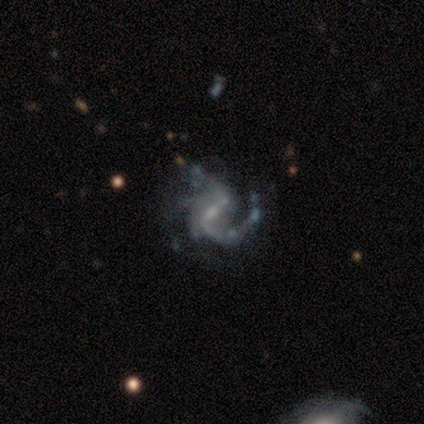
Smooth or featured?
  - featured or disk: 89% *
  - star or artifact: 11%
  - smooth: 0%
Edge-on disk?
  - no: 100% *
  - yes: 0%
Bar?
  - strong: 38% * (tied)
  - no: 38% * (tied)
  - weak: 25%
Spiral arms?
  - yes: 100% *
  - no: 0%
Spiral winding?
  - loose: 50% *
  - medium: 38%
  - tight: 12%
Spiral arm count?
  - 1: 75% *
  - 2: 12%
  - 4: 12%
  - 3: 0%
  - more than 4: 0%
  - can't tell: 0%
Bulge size?
  - none: 50% *
  - small: 38%
  - moderate: 12%
  - dominant: 0%
  - large: 0%
Merging?
  - none: 50% *
  - minor disturbance: 25%
  - major disturbance: 25%
  - merger: 0%